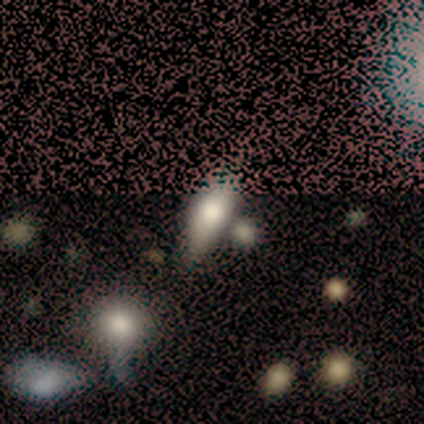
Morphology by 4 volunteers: Volunteers were most divided on "smooth or featured" (2-way tie): smooth: 50%, star or artifact: 50%, featured or disk: 0%; "merging" (2-way tie): none: 50%, minor disturbance: 50%, major disturbance: 0%, merger: 0%. More confident: how rounded — in between (100%).